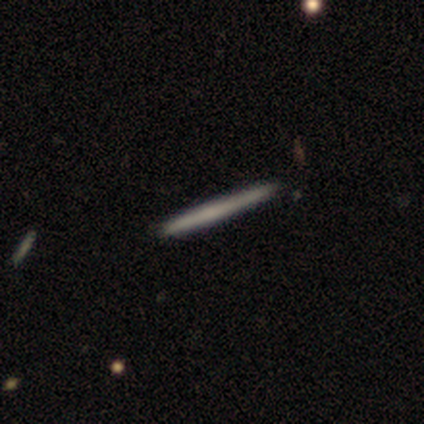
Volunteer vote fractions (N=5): Smooth or featured? 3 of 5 (60%) said smooth. How rounded? 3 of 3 (100%) said cigar-shaped. Merging? 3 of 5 (60%) said none.